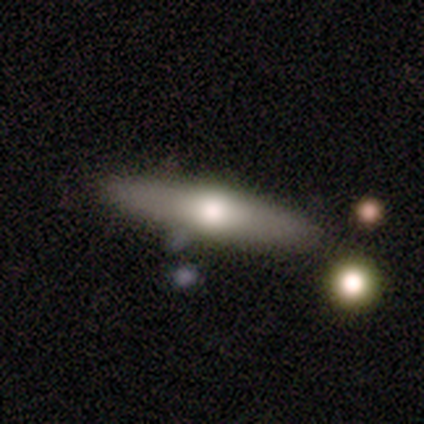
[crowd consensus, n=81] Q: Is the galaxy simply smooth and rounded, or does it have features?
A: smooth — 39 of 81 (48%).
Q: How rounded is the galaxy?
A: cigar-shaped — 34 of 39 (87%).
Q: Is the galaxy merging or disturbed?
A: none — 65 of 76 (86%).